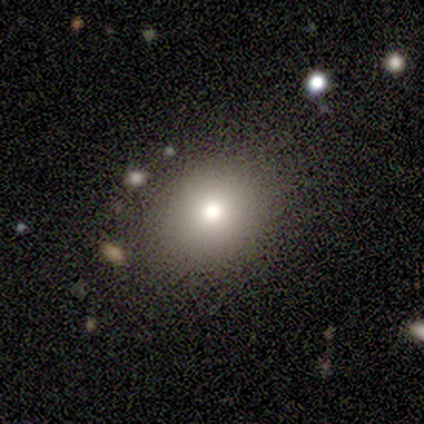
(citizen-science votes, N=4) A smooth galaxy with no disk features (100%) that is round (50%, tied with in between). Merging: none (75%).